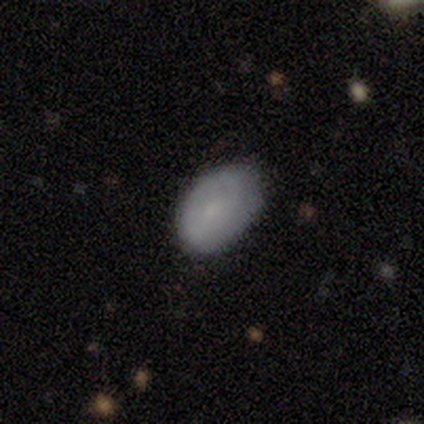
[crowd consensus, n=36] Morphology: type=smooth (81%); roundness=in between (76%); merging=none (57%).